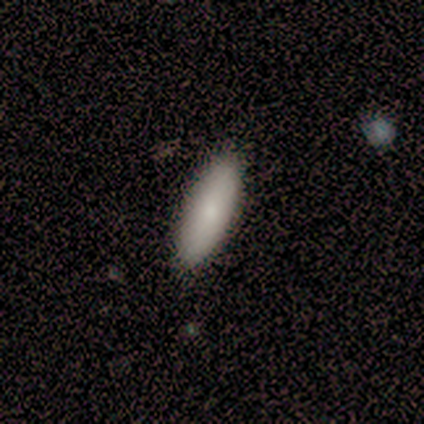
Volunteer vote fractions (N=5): smooth-or-featured: smooth: 80% | featured or disk: 20% | star or artifact: 0%
  how-rounded: cigar-shaped: 75% | in between: 25% | round: 0%
  merging: none: 80% | minor disturbance: 20% | major disturbance: 0% | merger: 0%